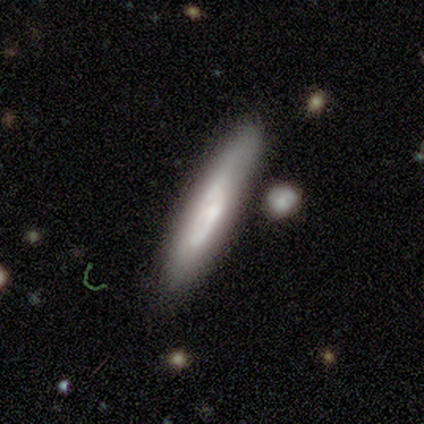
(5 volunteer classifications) Morphology: type=smooth (40%, tied with featured or disk); roundness=cigar-shaped (100%); merging=none (50%).